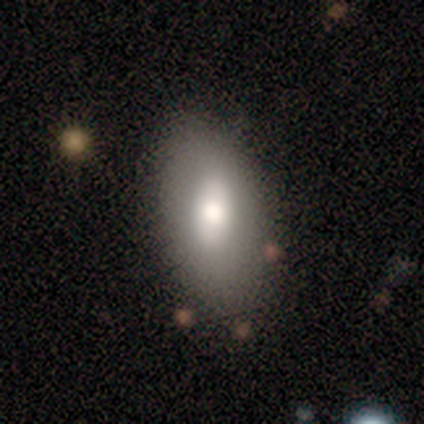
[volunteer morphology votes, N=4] smooth-or-featured: smooth: 50% | featured or disk: 25% | star or artifact: 25%
  how-rounded: in between: 100% | round: 0% | cigar-shaped: 0%
  merging: none: 33% (tied) | minor disturbance: 33% (tied) | major disturbance: 33% (tied) | merger: 0%